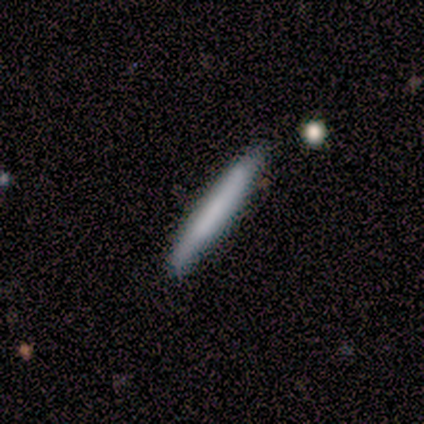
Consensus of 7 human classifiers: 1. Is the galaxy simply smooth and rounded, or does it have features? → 86% smooth, 14% star or artifact, 0% featured or disk.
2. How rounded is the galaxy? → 100% cigar-shaped, 0% round, 0% in between.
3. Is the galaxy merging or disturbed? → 100% none, 0% minor disturbance, 0% major disturbance, 0% merger.